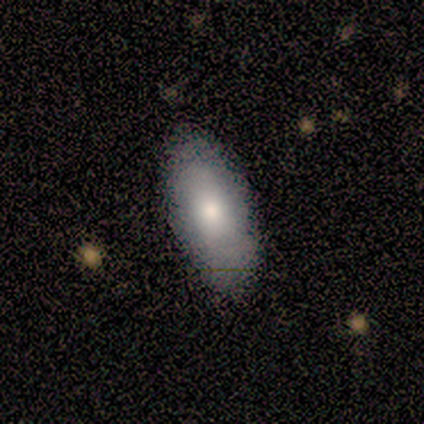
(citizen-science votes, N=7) smooth_or_featured: smooth (p=0.86) [alt: featured or disk p=0.14]
how_rounded: in between (p=1.00)
merging: none (p=0.86) [alt: minor disturbance p=0.14]